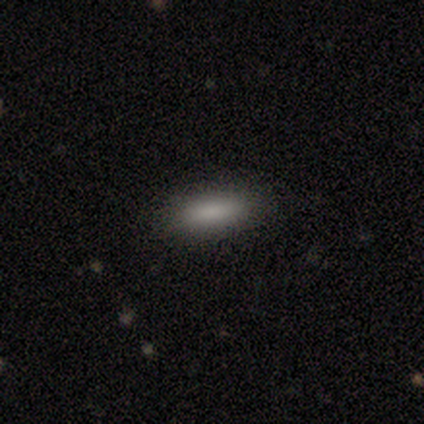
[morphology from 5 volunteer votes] smooth_or_featured: smooth (p=0.80) [alt: featured or disk p=0.20]
how_rounded: in between (p=0.75) [alt: cigar-shaped p=0.25]
merging: none (p=1.00)